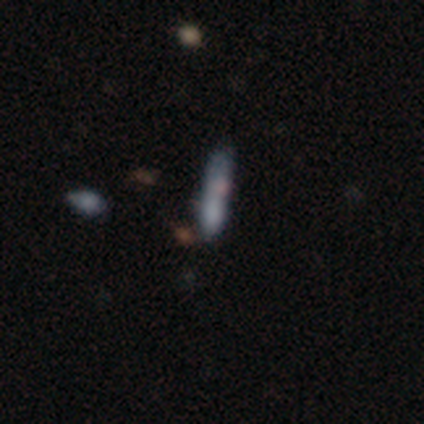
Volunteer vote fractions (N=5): Morphology: type=smooth (80%); roundness=cigar-shaped (75%); merging=none (40%, tied with major disturbance).